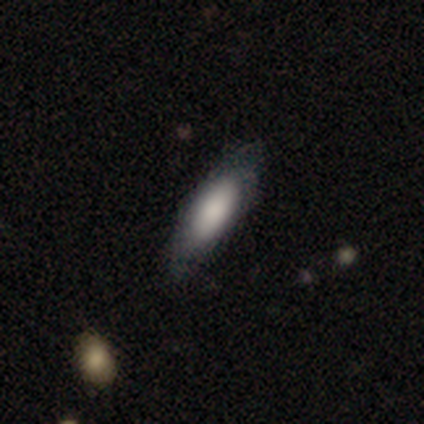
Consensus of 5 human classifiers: Smooth or featured? 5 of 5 (100%) said smooth. How rounded? 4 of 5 (80%) said in between. Merging? 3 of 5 (60%) said none.